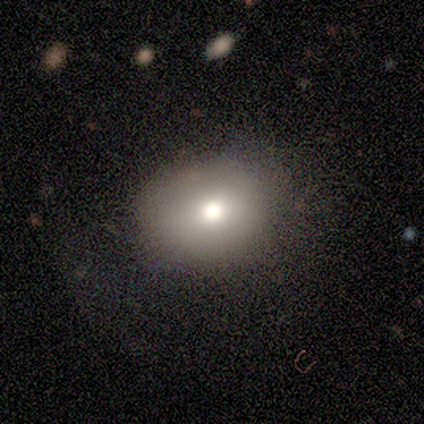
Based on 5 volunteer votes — This appears to be a smooth galaxy with no disk features (100%) that is round (60%). Merging: none (80%).